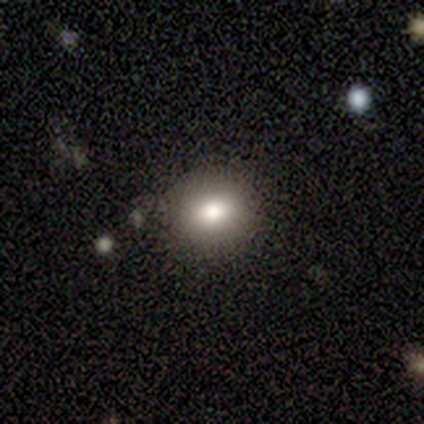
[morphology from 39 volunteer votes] Smooth or featured?
  - smooth: 69% *
  - star or artifact: 21%
  - featured or disk: 10%
How rounded?
  - round: 81% *
  - in between: 19%
  - cigar-shaped: 0%
Merging?
  - none: 94% *
  - minor disturbance: 6%
  - major disturbance: 0%
  - merger: 0%